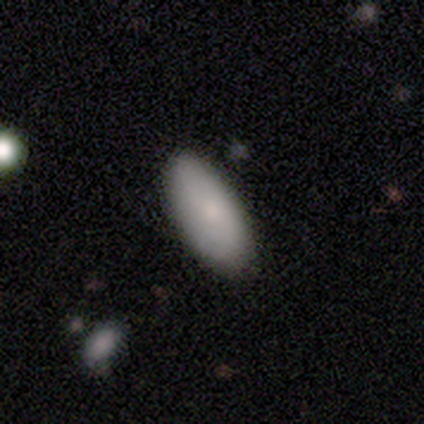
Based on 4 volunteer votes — Q: Smooth or featured?
A: smooth (100%)
Q: How rounded?
A: in between (100%)
Q: Merging?
A: none (100%)